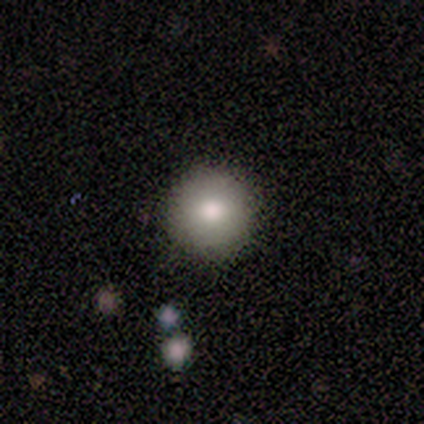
A smooth galaxy with no disk features (75%) that is round (100%).

Vote fractions:
- Smooth or featured? smooth: 75% / star or artifact: 25% / featured or disk: 0%
- How rounded? round: 100% / in between: 0% / cigar-shaped: 0%
- Merging? none: 100% / minor disturbance: 0% / major disturbance: 0% / merger: 0%